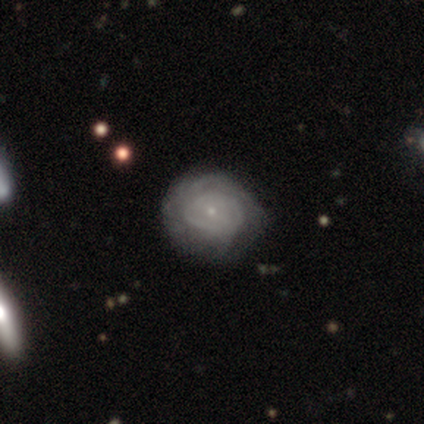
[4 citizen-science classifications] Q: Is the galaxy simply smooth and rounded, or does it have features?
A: smooth — 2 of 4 (50%, tied with featured or disk).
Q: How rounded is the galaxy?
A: round — 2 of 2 (100%).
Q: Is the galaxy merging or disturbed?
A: none — 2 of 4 (50%).